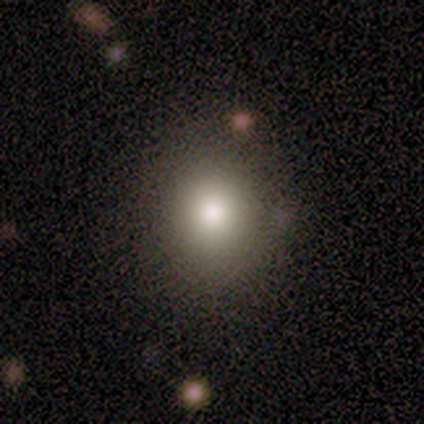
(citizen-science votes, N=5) Smooth or featured? 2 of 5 (40%, tied with featured or disk) said smooth. How rounded? 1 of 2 (50%, tied with in between) said round. Merging? 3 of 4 (75%) said none.